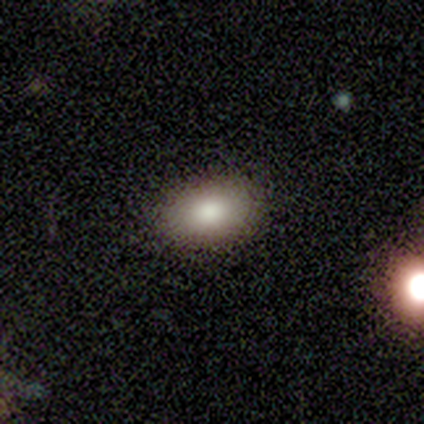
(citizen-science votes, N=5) smooth 80%, star or artifact 20%, featured or disk 0%. Down the decision tree: how rounded — in between (100%); merging — none (75%).